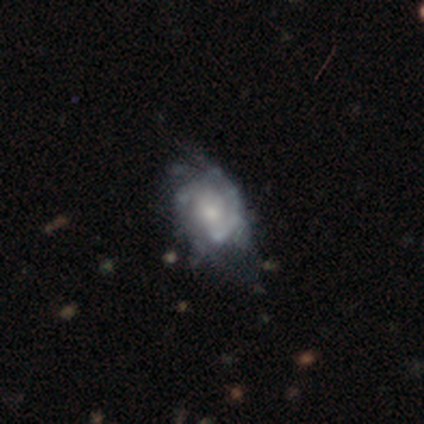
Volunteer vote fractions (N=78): smooth_or_featured: featured or disk (p=0.86) [alt: smooth p=0.10]
disk_edge_on: no (p=0.99) [alt: yes p=0.01]
bar: no (p=0.61) [alt: weak p=0.30]
has_spiral_arms: yes (p=0.82) [alt: no p=0.18]
spiral_winding: tight (p=0.44) [tied with: medium p=0.44]
spiral_arm_count: 2 (p=0.54) [alt: can't tell p=0.33]
bulge_size: moderate (p=0.42) [alt: small p=0.38]
merging: none (p=0.23) [alt: minor disturbance p=0.19]